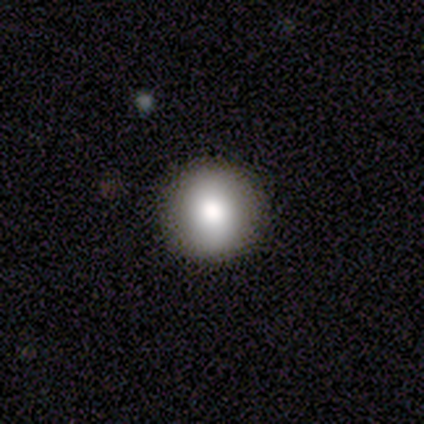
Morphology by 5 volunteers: Smooth or featured? smooth (80%)
How rounded? round (100%)
Merging? none (100%)